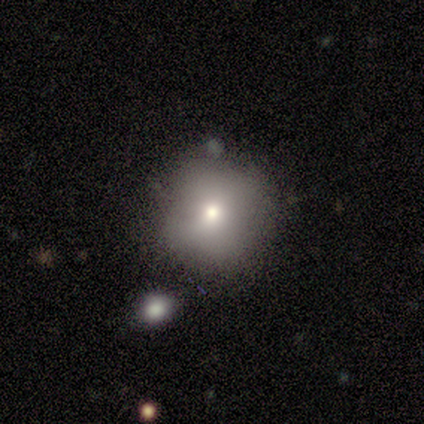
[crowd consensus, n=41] Overall: smooth (63%). How rounded: round (96%). Merging: none (65%).